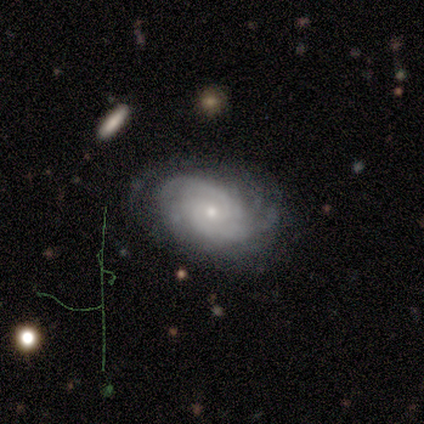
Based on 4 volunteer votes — This is possibly a smooth galaxy (50%, tied with featured or disk). How rounded: possibly round (50%, tied with in between). Merging: clearly none (100%).